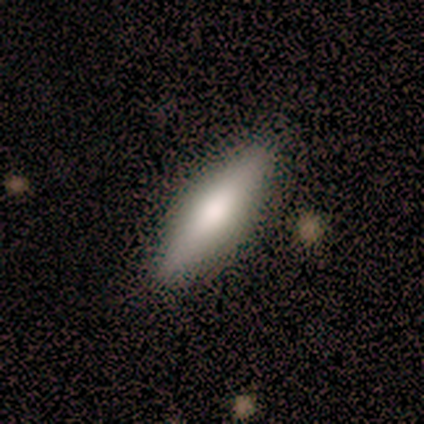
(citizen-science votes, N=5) Morphology: type=smooth (60%); roundness=in between (100%); merging=none (100%).